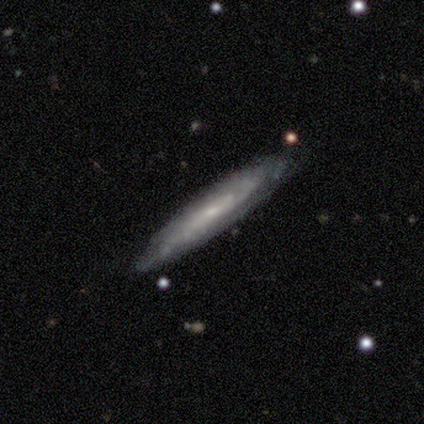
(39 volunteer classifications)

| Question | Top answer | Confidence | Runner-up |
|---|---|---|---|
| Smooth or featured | featured or disk | 77% | smooth (21%) |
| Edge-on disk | yes | 60% | no (40%) |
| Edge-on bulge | none | 78% | rounded (22%) |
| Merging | none | 76% | minor disturbance (18%) |